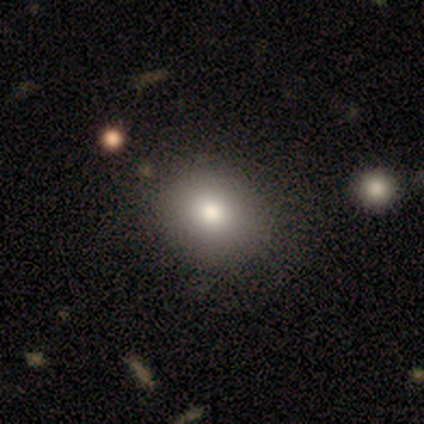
smooth-or-featured: smooth: 80% | featured or disk: 20% | star or artifact: 0%
  how-rounded: round: 75% | in between: 25% | cigar-shaped: 0%
  merging: none: 80% | merger: 20% | minor disturbance: 0% | major disturbance: 0%